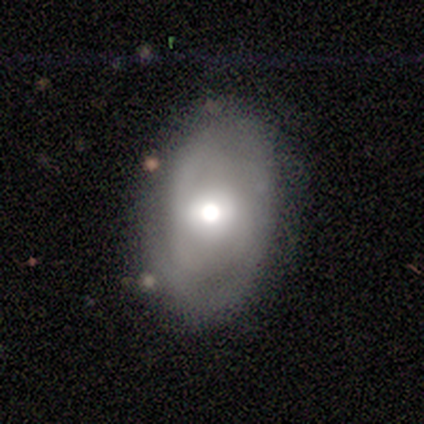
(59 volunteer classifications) Smooth or featured? featured or disk (53%)
Edge-on disk? no (90%)
Bar? no (68%)
Spiral arms? yes (54%)
Spiral winding? medium (60%)
Spiral arm count? 2 (47%)
Bulge size? moderate (57%)
Merging? none (60%)